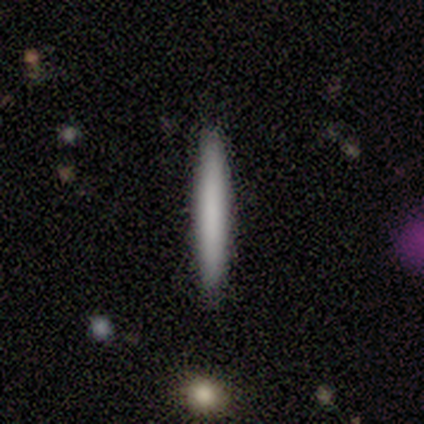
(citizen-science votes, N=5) A featured or disk galaxy (60%) viewed edge-on (67%) with no central bulge (100%).

Vote fractions:
- Smooth or featured? featured or disk: 60% / smooth: 40% / star or artifact: 0%
- Edge-on disk? yes: 67% / no: 33%
- Edge-on bulge? none: 100% / boxy: 0% / rounded: 0%
- Merging? none: 80% / minor disturbance: 20% / major disturbance: 0% / merger: 0%